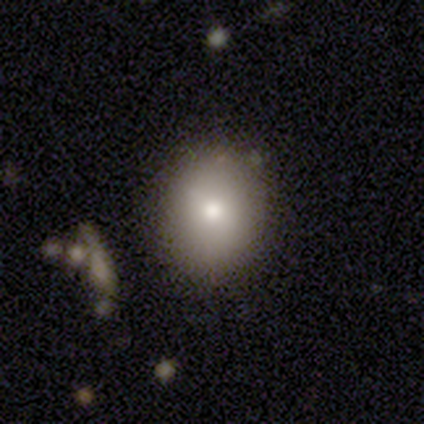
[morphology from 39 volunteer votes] smooth_or_featured: smooth (p=0.72) [alt: featured or disk p=0.18]
how_rounded: round (p=0.68) [alt: in between p=0.29]
merging: none (p=0.86) [alt: minor disturbance p=0.06]